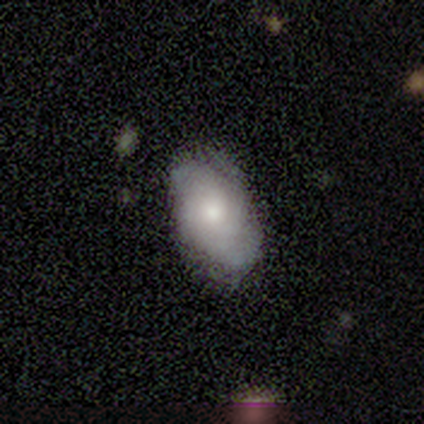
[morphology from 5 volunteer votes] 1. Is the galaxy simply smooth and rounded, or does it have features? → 40% smooth (tied), 40% featured or disk (tied), 20% star or artifact.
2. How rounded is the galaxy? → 100% in between, 0% round, 0% cigar-shaped.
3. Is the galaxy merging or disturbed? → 50% none (tied), 50% minor disturbance (tied), 0% major disturbance, 0% merger.